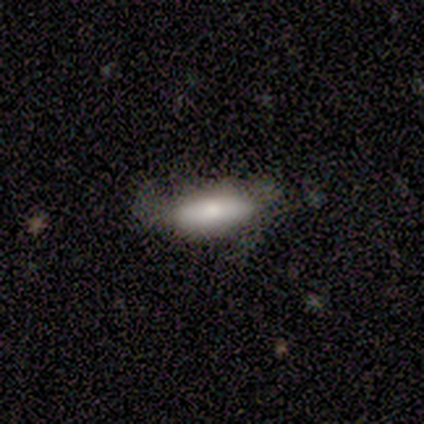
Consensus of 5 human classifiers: Volunteers were most divided on "merging" (2-way tie): minor disturbance: 40%, major disturbance: 40%, none: 20%, merger: 0%. More confident: smooth or featured — smooth (100%); how rounded — in between (100%).